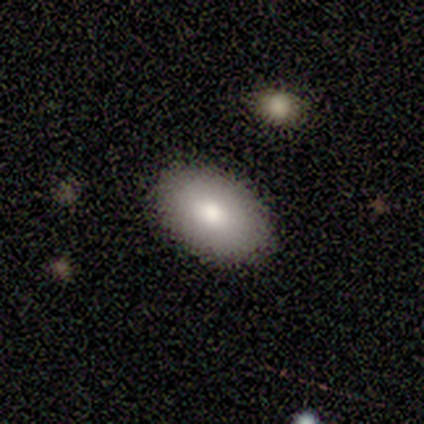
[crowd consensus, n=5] Smooth or featured? 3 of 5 (60%) said smooth. How rounded? 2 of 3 (67%) said in between. Merging? 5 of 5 (100%) said none.